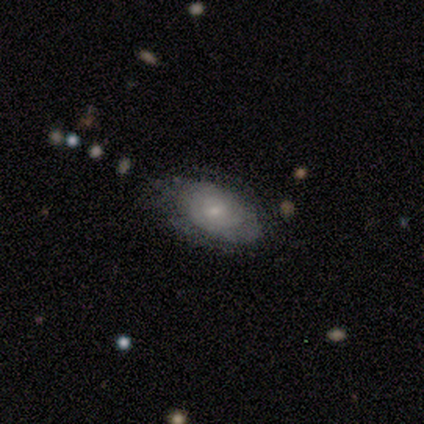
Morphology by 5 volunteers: A smooth galaxy with no disk features (60%) that is in between round and cigar-shaped (100%). Merging: none (50%).